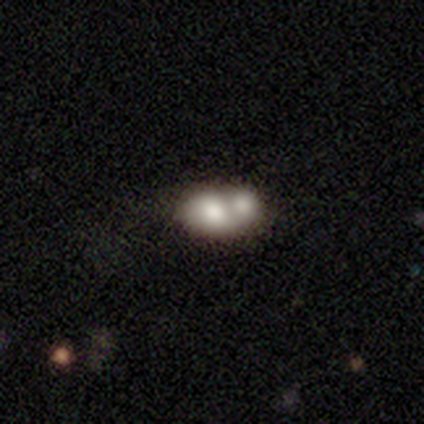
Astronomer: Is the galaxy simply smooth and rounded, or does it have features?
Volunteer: smooth — 74%.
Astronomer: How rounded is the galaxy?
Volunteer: in between — 60% (runner-up: round, 40%).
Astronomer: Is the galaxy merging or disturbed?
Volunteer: merger — 90%.